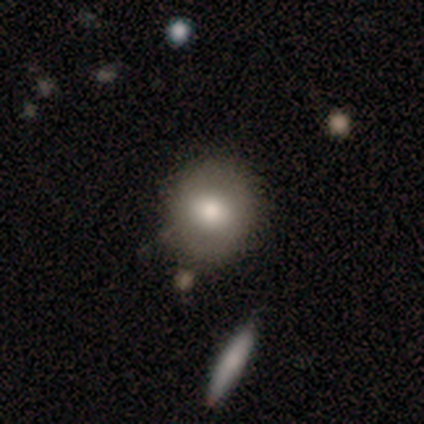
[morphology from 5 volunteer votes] Smooth or featured? 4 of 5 (80%) said smooth. How rounded? 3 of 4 (75%) said round. Merging? 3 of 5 (60%) said none.